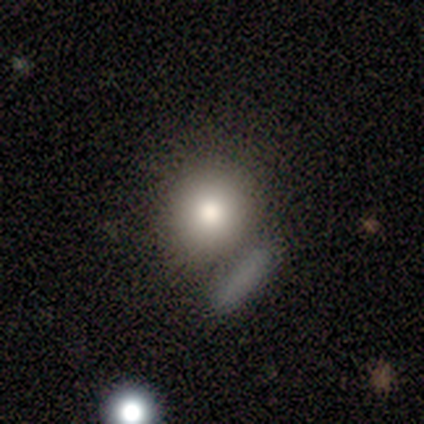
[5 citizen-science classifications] This is likely a smooth galaxy (60%). How rounded: likely round (67%). Merging: likely none (67%).